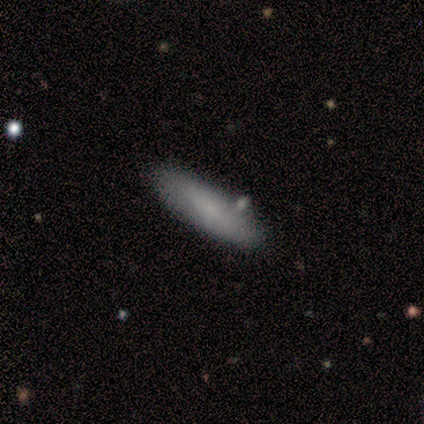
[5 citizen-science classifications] This appears to be a smooth galaxy with no disk features (100%) that is cigar-shaped (60%). Merging: none (100%).